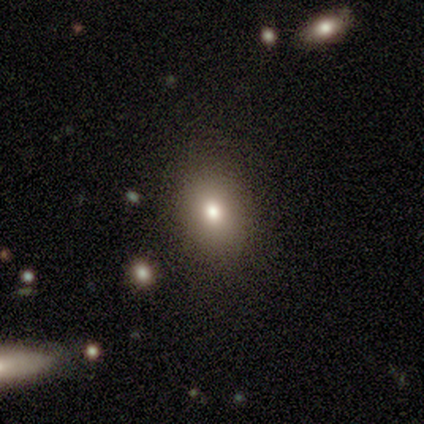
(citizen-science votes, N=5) Volunteers were most divided on "how rounded" (2-way tie): round: 50%, in between: 50%, cigar-shaped: 0%. More confident: smooth or featured — smooth (80%); merging — none (80%).